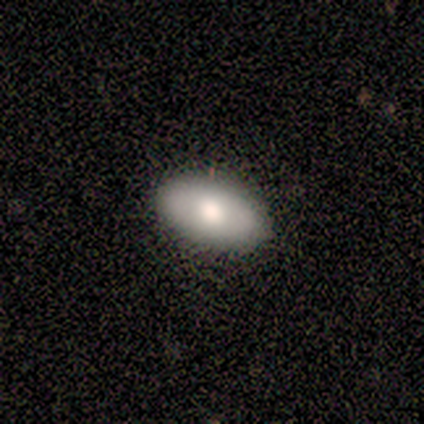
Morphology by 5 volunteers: smooth_or_featured: smooth (p=1.00)
how_rounded: in between (p=1.00)
merging: none (p=1.00)